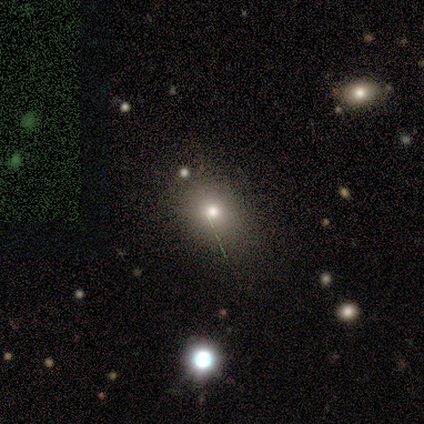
This appears to be a star or artifact, not a galaxy (75%).